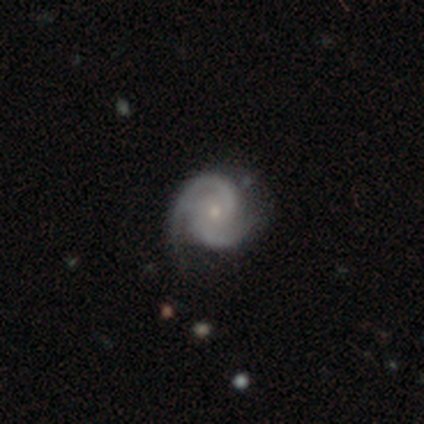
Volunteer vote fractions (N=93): Overall: featured or disk (94%). Edge-on disk: no (97%). Bar: no (64%; weak 32%). Spiral arms: yes (100%). Spiral arm count: 2 (87%). Spiral winding: tight (54%; medium 42%). Bulge size: small (71%). Merging: none (73%).